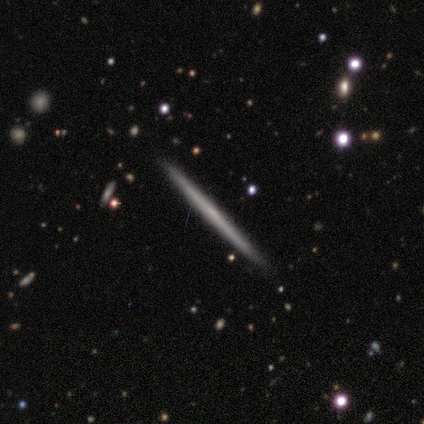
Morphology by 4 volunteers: type=featured or disk (75%); edge-on=yes (100%); edge-on bulge=none (67%); merging=none (100%).